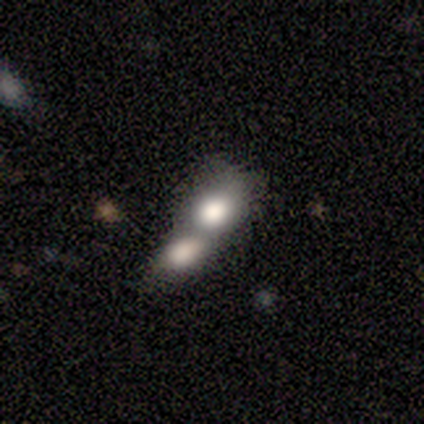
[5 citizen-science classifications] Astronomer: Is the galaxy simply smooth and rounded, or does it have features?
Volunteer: smooth — 80%.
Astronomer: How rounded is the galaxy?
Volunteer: in between — 75%.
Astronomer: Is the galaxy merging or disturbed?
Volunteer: merger — 100%.